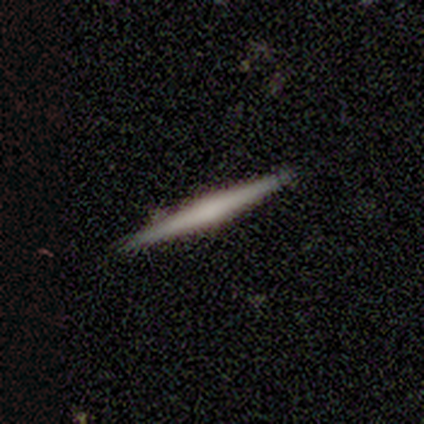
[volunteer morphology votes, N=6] Volunteers were most divided on "edge-on bulge" (2-way tie): boxy: 50%, none: 50%, rounded: 0%. More confident: edge-on disk — yes (100%); merging — none (80%); smooth or featured — featured or disk (67%).